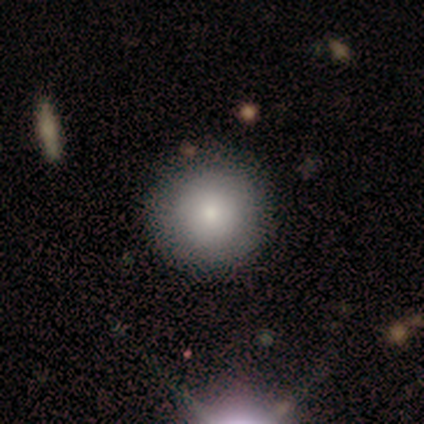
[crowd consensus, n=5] smooth-or-featured: smooth: 80% | featured or disk: 20% | star or artifact: 0%
  how-rounded: round: 100% | in between: 0% | cigar-shaped: 0%
  merging: none: 80% | minor disturbance: 20% | major disturbance: 0% | merger: 0%